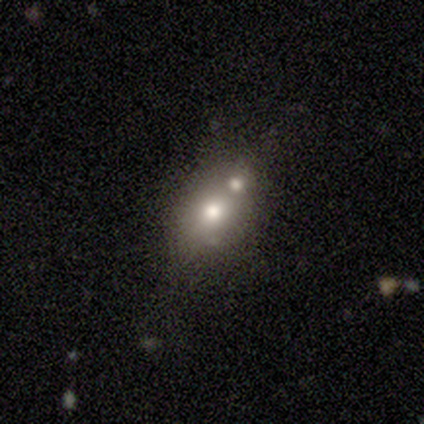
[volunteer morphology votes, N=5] Smooth or featured?
  - featured or disk: 40% * (tied)
  - star or artifact: 40% * (tied)
  - smooth: 20%
Edge-on disk?
  - yes: 50% * (tied)
  - no: 50% * (tied)
Edge-on bulge?
  - rounded: 100% *
  - boxy: 0%
  - none: 0%
Merging?
  - merger: 67% *
  - none: 33%
  - minor disturbance: 0%
  - major disturbance: 0%